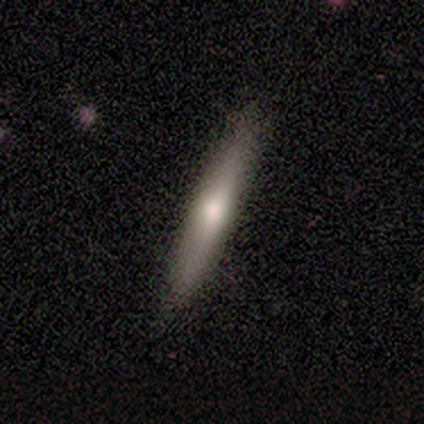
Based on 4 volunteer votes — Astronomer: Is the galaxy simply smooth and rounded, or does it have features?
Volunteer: smooth — 50%, tied with featured or disk at 50%.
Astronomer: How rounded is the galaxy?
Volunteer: cigar-shaped — 100%.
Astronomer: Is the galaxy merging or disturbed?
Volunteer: none — 75%.